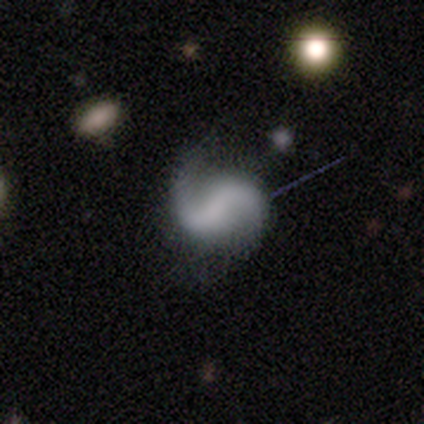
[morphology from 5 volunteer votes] Overall: featured or disk (100%). Edge-on disk: no (100%). Bar: weak (40%, tied with no). Spiral arms: yes (100%). Spiral arm count: 2 (100%). Spiral winding: loose (60%; medium 40%). Bulge size: none (60%; small 40%). Merging: none (80%).